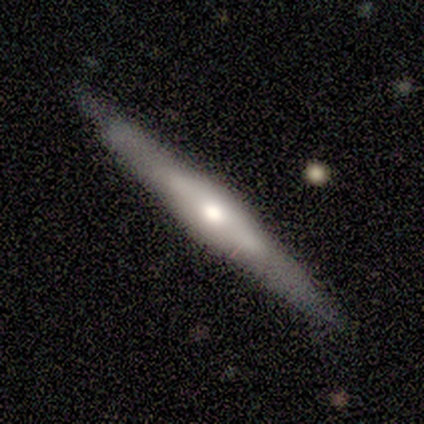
Q: Smooth or featured?
A: smooth (60%); runner-up: featured or disk (40%)
Q: How rounded?
A: cigar-shaped (100%)
Q: Merging?
A: none (80%); runner-up: minor disturbance (20%)